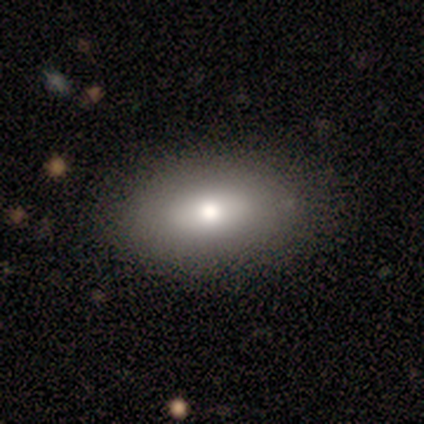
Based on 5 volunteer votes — Morphology: type=smooth (100%); roundness=in between (80%); merging=none (80%).